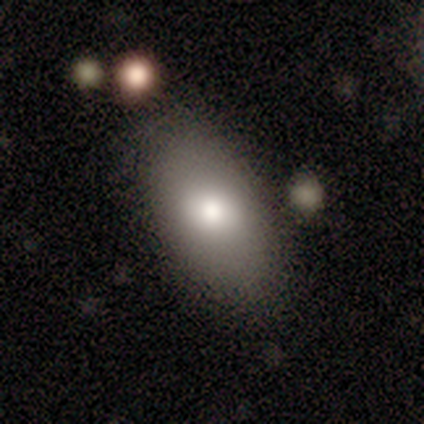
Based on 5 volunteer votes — Smooth or featured?
  - smooth: 100% *
  - featured or disk: 0%
  - star or artifact: 0%
How rounded?
  - in between: 100% *
  - round: 0%
  - cigar-shaped: 0%
Merging?
  - none: 100% *
  - minor disturbance: 0%
  - major disturbance: 0%
  - merger: 0%